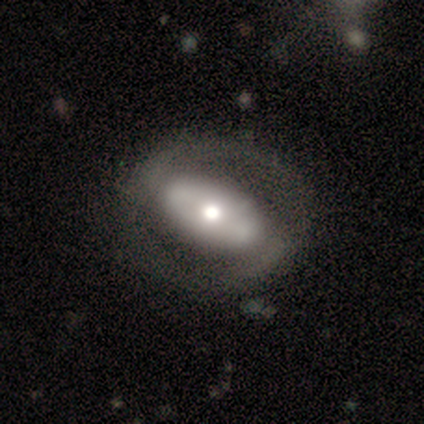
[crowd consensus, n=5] Morphology: type=featured or disk (60%); edge-on=no (100%); bar=strong (67%); spiral arms=yes (100%); winding=medium (100%); arm count=2 (100%); bulge=moderate (100%); merging=none (100%).